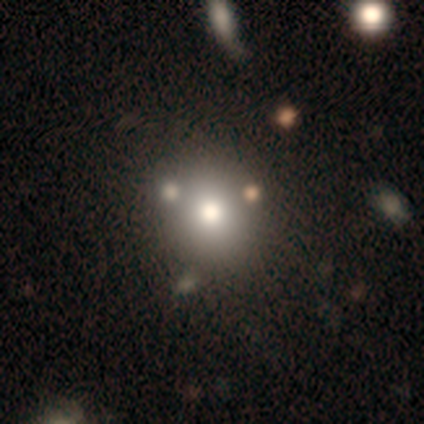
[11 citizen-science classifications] Smooth or featured: smooth — 73% (featured or disk — 27%)
How rounded: round — 88% (in between — 12%)
Merging: none — 73% (merger — 18%)